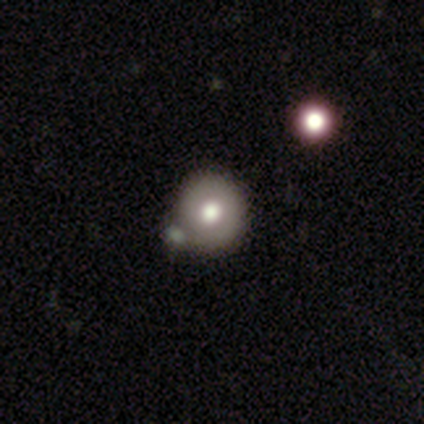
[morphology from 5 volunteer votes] Volunteers were most divided on "merging" (2-way tie): none: 50%, minor disturbance: 50%, major disturbance: 0%, merger: 0%. More confident: how rounded — round (100%); smooth or featured — smooth (60%).